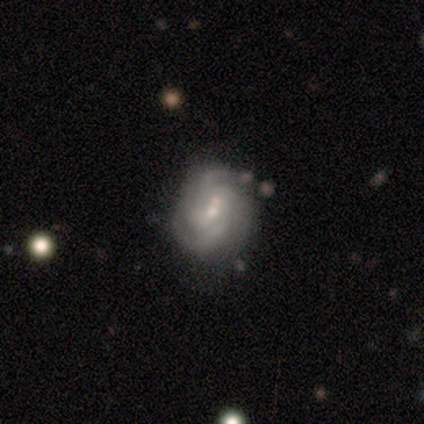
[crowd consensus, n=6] Smooth or featured? 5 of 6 (83%) said featured or disk. Edge-on disk? 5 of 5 (100%) said no. Bar? 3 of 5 (60%) said no. Spiral arms? 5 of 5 (100%) said yes. Spiral winding? 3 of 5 (60%) said tight. Spiral arm count? 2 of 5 (40%, tied with can't tell) said 2. Bulge size? 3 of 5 (60%) said moderate. Merging? 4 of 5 (80%) said none.